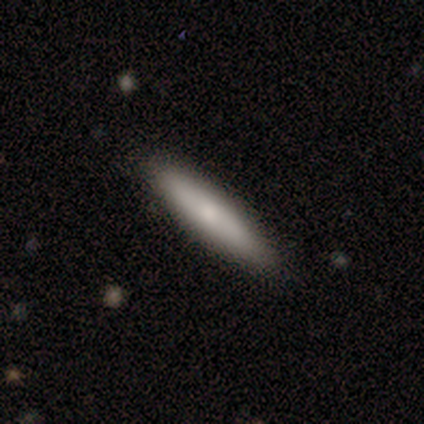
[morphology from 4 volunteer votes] Smooth or featured: featured or disk — 75% (smooth — 25%)
Edge-on disk: yes — 67% (no — 33%)
Edge-on bulge: none — 50% (tied with rounded — 50%)
Merging: none — 75% (minor disturbance — 25%)